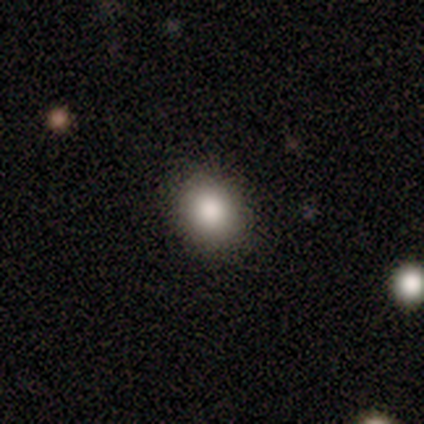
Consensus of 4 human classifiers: Smooth or featured? 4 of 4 (100%) said smooth. How rounded? 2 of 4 (50%, tied with in between) said round. Merging? 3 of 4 (75%) said none.